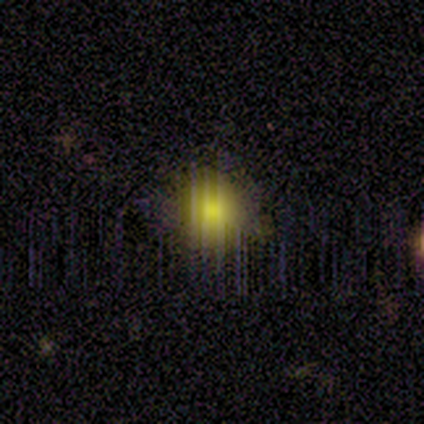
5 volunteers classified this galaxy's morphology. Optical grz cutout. It shows a smooth galaxy with no disk features (60%) that is round (67%). Merging: none (75%).